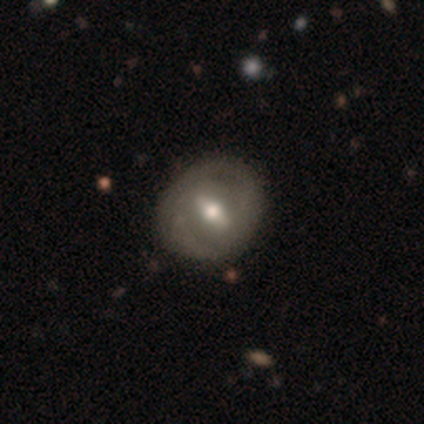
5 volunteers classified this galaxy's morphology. Overall: featured or disk (60%; smooth 40%). Edge-on disk: no (100%). Bar: weak (67%; no 33%). Spiral arms: no (67%; yes 33%). Bulge size: large (33%, tied with moderate and small). Merging: none (80%).